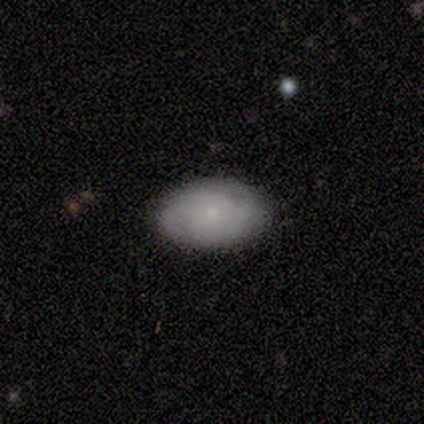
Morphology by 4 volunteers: type=smooth (75%); roundness=in between (100%); merging=none (75%).